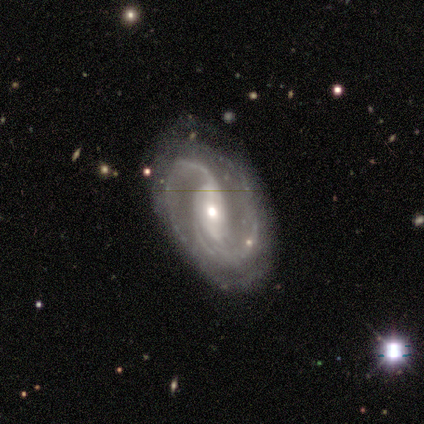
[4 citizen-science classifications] Q: Smooth or featured?
A: featured or disk (100%)
Q: Edge-on disk?
A: no (100%)
Q: Bar?
A: no (50%); runner-up: strong (25%)
Q: Spiral arms?
A: yes (100%)
Q: Spiral winding?
A: medium (50%); runner-up: tight (25%)
Q: Spiral arm count?
A: 2 (75%); runner-up: 1 (25%)
Q: Bulge size?
A: moderate (50%); tied with: small (50%)
Q: Merging?
A: none (75%); runner-up: minor disturbance (25%)